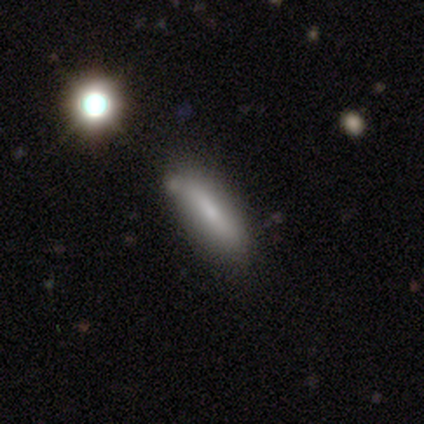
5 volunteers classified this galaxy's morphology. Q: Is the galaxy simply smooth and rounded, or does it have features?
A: smooth — 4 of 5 (80%).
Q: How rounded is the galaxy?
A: cigar-shaped — 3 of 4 (75%).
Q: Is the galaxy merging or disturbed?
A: minor disturbance — 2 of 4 (50%).